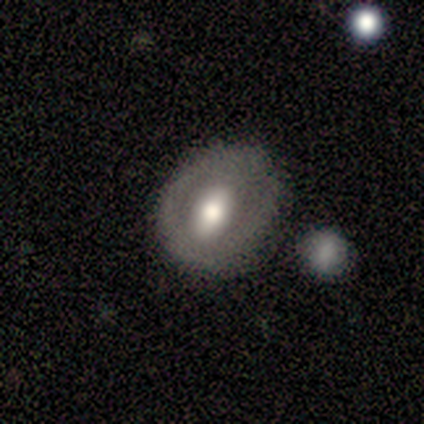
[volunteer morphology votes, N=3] Volunteers were most divided on "bar" (2-way tie): strong: 50%, no: 50%, weak: 0%; "bulge size" (2-way tie): large: 50%, moderate: 50%, dominant: 0%, small: 0%, none: 0%; "merging" (2-way tie): none: 50%, minor disturbance: 50%, major disturbance: 0%, merger: 0%. More confident: edge-on disk — no (100%); spiral arms — no (100%); smooth or featured — featured or disk (67%).